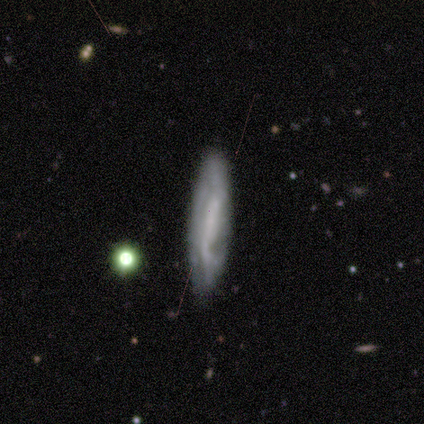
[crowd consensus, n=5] Smooth or featured: featured or disk — 80% (smooth — 20%)
Edge-on disk: no — 75% (yes — 25%)
Bar: strong — 33% (tied with weak — 33%; no — 33%)
Spiral arms: yes — 67% (no — 33%)
Spiral winding: tight — 50% (tied with loose — 50%)
Spiral arm count: 2 — 100%
Bulge size: large — 33% (tied with small — 33%; none — 33%)
Merging: none — 80% (minor disturbance — 20%)